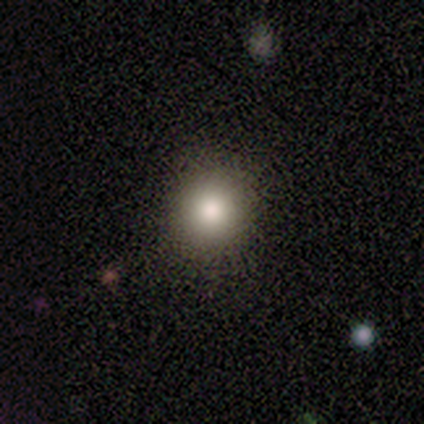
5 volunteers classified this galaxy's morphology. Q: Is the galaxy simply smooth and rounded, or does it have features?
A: smooth — 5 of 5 (100%).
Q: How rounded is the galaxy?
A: round — 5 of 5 (100%).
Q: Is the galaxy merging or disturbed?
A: none — 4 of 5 (80%).